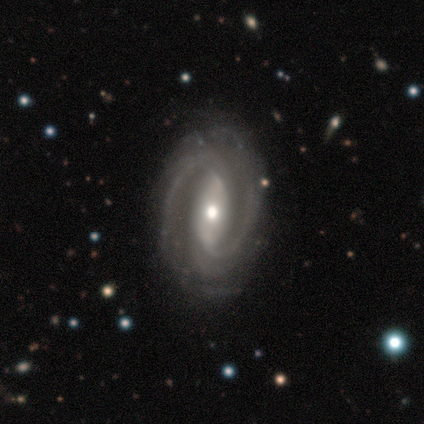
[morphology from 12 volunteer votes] Q: Smooth or featured?
A: featured or disk (83%); runner-up: smooth (8%)
Q: Edge-on disk?
A: no (100%)
Q: Bar?
A: no (60%); runner-up: strong (40%)
Q: Spiral arms?
A: yes (100%)
Q: Spiral winding?
A: tight (50%); tied with: medium (50%)
Q: Spiral arm count?
A: 2 (60%); runner-up: can't tell (20%)
Q: Bulge size?
A: moderate (50%); runner-up: small (40%)
Q: Merging?
A: none (82%); runner-up: minor disturbance (9%)